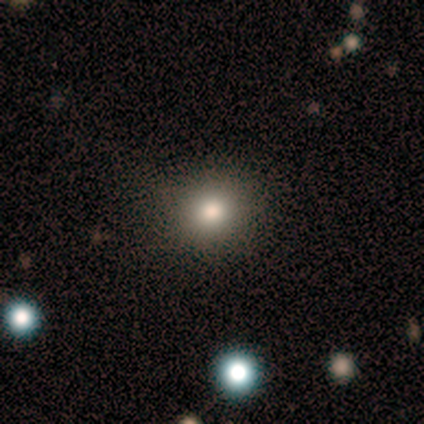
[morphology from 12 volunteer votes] Smooth or featured: smooth — 92% (star or artifact — 8%)
How rounded: round — 82% (in between — 18%)
Merging: none — 100%